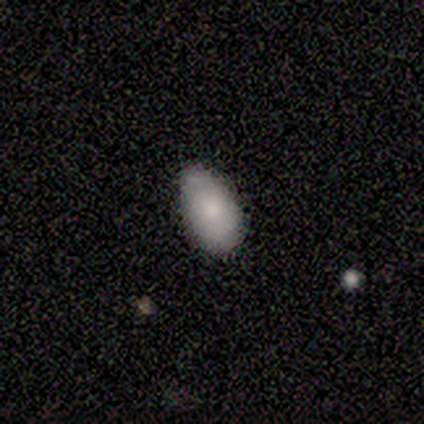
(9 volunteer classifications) Smooth or featured?
  - smooth: 89% *
  - star or artifact: 11%
  - featured or disk: 0%
How rounded?
  - in between: 100% *
  - round: 0%
  - cigar-shaped: 0%
Merging?
  - none: 50% * (tied)
  - minor disturbance: 50% * (tied)
  - major disturbance: 0%
  - merger: 0%